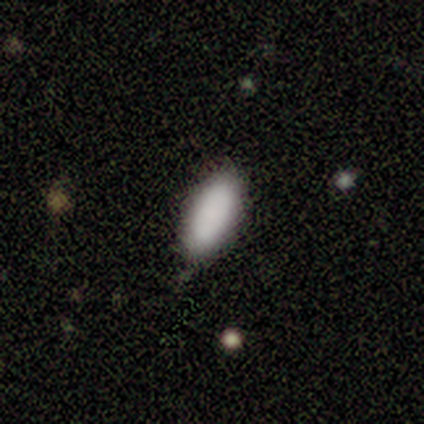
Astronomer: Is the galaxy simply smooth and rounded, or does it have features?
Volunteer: smooth — 100%.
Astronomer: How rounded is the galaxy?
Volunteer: in between — 100%.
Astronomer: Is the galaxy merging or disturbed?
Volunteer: none — 100%.